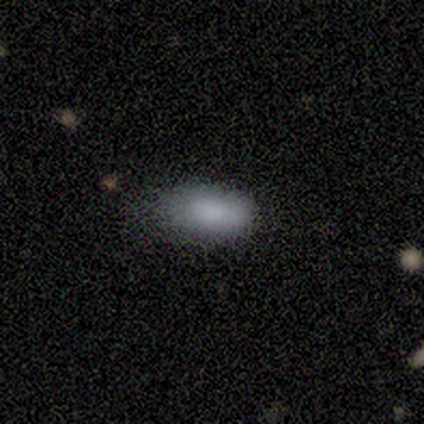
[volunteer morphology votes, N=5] This appears to be a smooth galaxy with no disk features (100%) that is in between round and cigar-shaped (100%). Merging: none (60%).